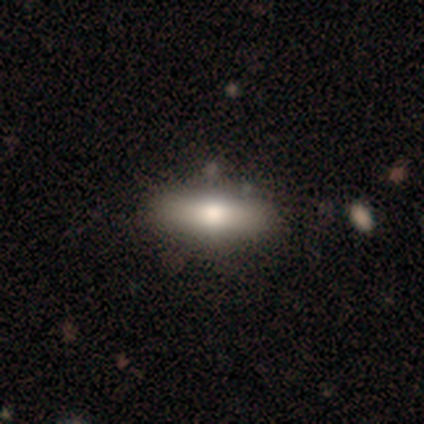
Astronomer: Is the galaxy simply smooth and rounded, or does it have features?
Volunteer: featured or disk — 60%.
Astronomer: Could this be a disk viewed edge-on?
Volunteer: yes — 67%.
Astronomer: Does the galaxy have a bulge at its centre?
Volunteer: rounded — 100%.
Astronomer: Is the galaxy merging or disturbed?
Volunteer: none — 100%.